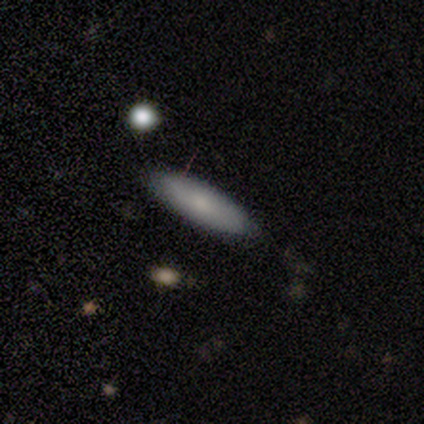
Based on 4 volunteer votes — A smooth galaxy with no disk features (100%) that is in between round and cigar-shaped (50%, tied with cigar-shaped).

Vote fractions:
- Smooth or featured? smooth: 100% / featured or disk: 0% / star or artifact: 0%
- How rounded? in between: 50% (tied) / cigar-shaped: 50% (tied) / round: 0%
- Merging? none: 75% / minor disturbance: 25% / major disturbance: 0% / merger: 0%